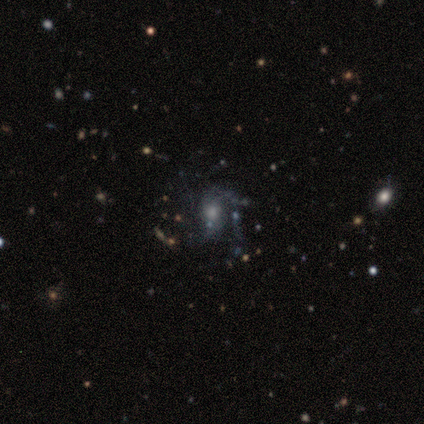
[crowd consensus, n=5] Morphology: type=featured or disk (100%); edge-on=no (100%); bar=no (80%); spiral arms=yes (60%); winding=loose (67%); arm count=1 (33%, tied with 3 and can't tell); bulge=moderate (60%); merging=minor disturbance (40%, tied with major disturbance).